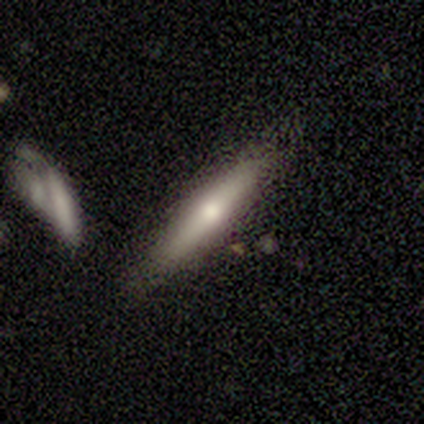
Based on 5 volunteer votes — Q: Smooth or featured?
A: smooth (60%); runner-up: featured or disk (40%)
Q: How rounded?
A: cigar-shaped (100%)
Q: Merging?
A: none (100%)